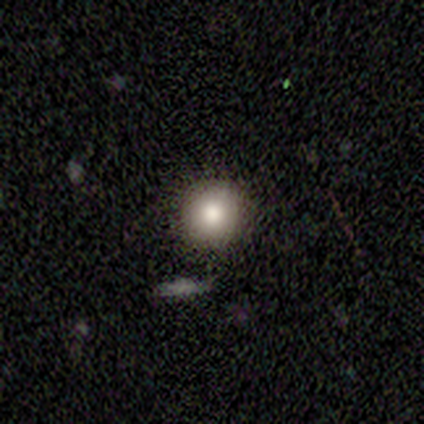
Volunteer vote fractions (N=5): smooth_or_featured: star or artifact (p=0.60) [alt: smooth p=0.40]